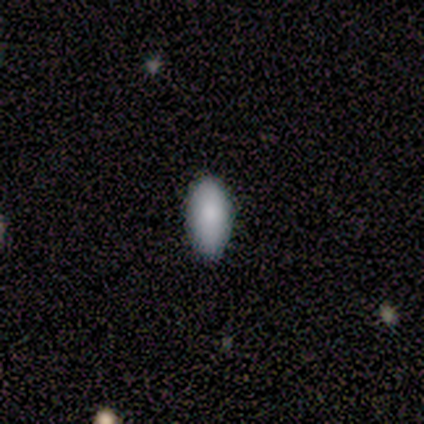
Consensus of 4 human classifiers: smooth-or-featured: smooth: 100% | featured or disk: 0% | star or artifact: 0%
  how-rounded: in between: 100% | round: 0% | cigar-shaped: 0%
  merging: none: 75% | major disturbance: 25% | minor disturbance: 0% | merger: 0%